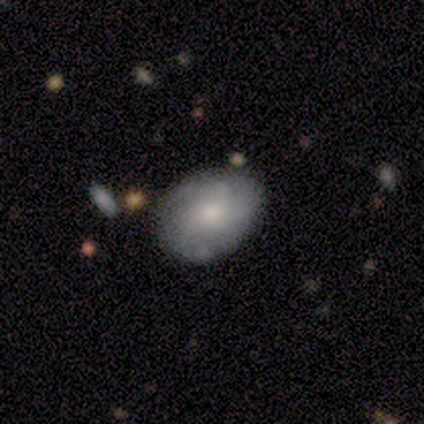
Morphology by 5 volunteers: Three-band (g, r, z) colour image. It shows a featured or disk galaxy (60%) with no bar (100%), no spiral arms (67%) and a small central bulge (67%). Merging: none (50%, tied with minor disturbance).